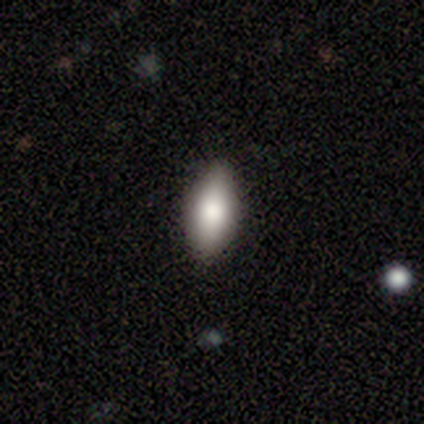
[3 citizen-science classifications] This is clearly a smooth galaxy (100%). How rounded: clearly in between (100%). Merging: likely none (67%).